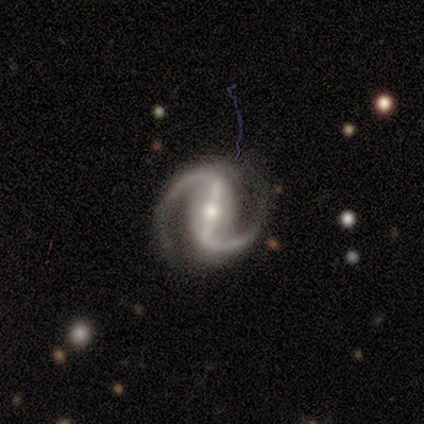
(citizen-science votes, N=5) Smooth or featured?
  - featured or disk: 100% *
  - smooth: 0%
  - star or artifact: 0%
Edge-on disk?
  - no: 100% *
  - yes: 0%
Bar?
  - strong: 100% *
  - weak: 0%
  - no: 0%
Spiral arms?
  - yes: 100% *
  - no: 0%
Spiral winding?
  - medium: 60% *
  - tight: 20%
  - loose: 20%
Spiral arm count?
  - 2: 100% *
  - 1: 0%
  - 3: 0%
  - 4: 0%
  - more than 4: 0%
  - can't tell: 0%
Bulge size?
  - moderate: 60% *
  - small: 40%
  - dominant: 0%
  - large: 0%
  - none: 0%
Merging?
  - none: 100% *
  - minor disturbance: 0%
  - major disturbance: 0%
  - merger: 0%